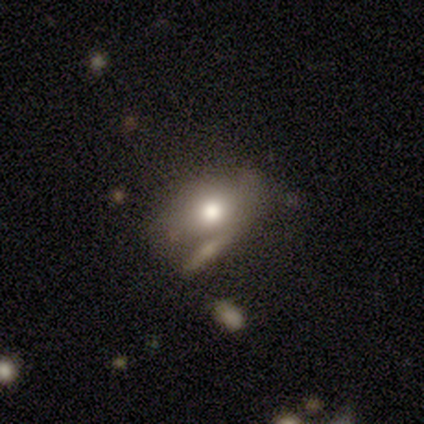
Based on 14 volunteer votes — Smooth or featured?
  - smooth: 64% *
  - featured or disk: 29%
  - star or artifact: 7%
How rounded?
  - in between: 67% *
  - round: 33%
  - cigar-shaped: 0%
Merging?
  - none: 62% *
  - merger: 23%
  - minor disturbance: 8%
  - major disturbance: 8%